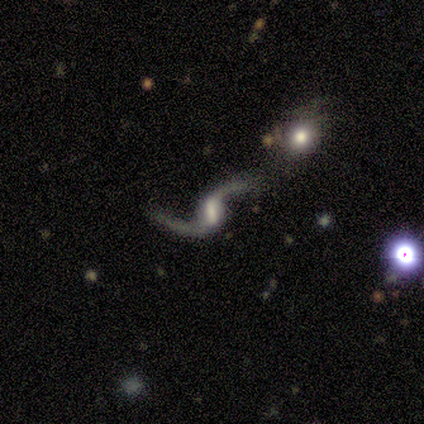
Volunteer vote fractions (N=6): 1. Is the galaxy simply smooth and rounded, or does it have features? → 100% featured or disk, 0% smooth, 0% star or artifact.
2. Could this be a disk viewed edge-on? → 100% no, 0% yes.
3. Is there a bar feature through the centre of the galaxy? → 67% strong, 33% weak, 0% no.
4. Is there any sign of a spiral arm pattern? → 100% yes, 0% no.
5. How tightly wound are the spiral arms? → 83% loose, 17% medium, 0% tight.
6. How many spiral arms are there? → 100% 2, 0% 1, 0% 3, 0% 4, 0% more than 4, 0% can't tell.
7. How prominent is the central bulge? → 50% large, 33% small, 17% moderate, 0% dominant, 0% none.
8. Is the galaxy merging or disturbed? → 67% none, 17% major disturbance, 17% merger, 0% minor disturbance.